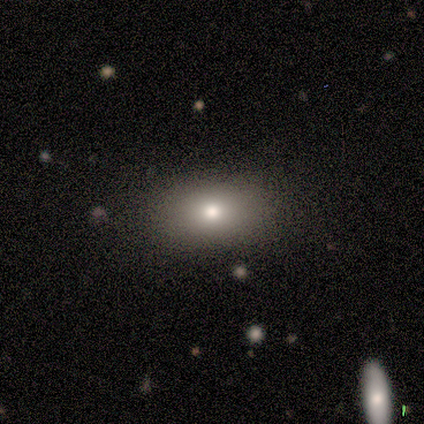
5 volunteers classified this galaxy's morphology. A smooth galaxy with no disk features (80%) that is in between round and cigar-shaped (75%). Merging: none (75%).